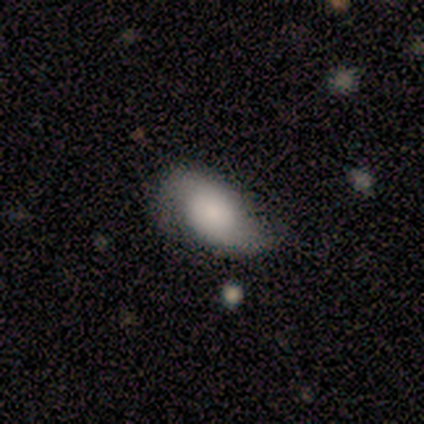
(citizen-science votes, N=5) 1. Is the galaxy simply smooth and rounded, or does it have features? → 80% smooth, 20% featured or disk, 0% star or artifact.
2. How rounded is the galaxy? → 100% in between, 0% round, 0% cigar-shaped.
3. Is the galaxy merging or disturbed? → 40% none (tied), 40% minor disturbance (tied), 20% major disturbance, 0% merger.